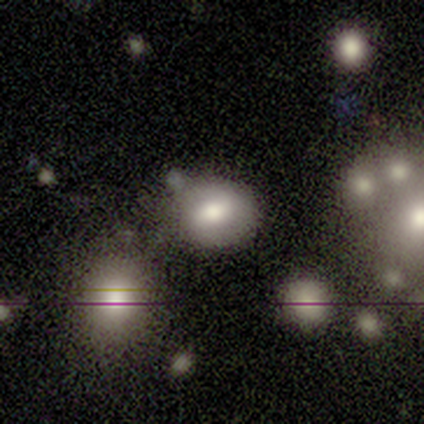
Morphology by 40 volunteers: smooth 52%, featured or disk 42%, star or artifact 5%. Down the decision tree: how rounded — round (62%); merging — none (63%).